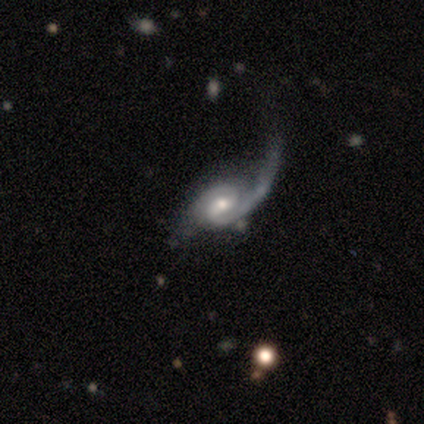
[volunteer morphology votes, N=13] A featured or disk galaxy (100%) with a weak bar (54%), 2 (92%) medium (46%) spiral arms (100%) and a moderate central bulge (69%).

Vote fractions:
- Smooth or featured? featured or disk: 100% / smooth: 0% / star or artifact: 0%
- Edge-on disk? no: 100% / yes: 0%
- Bar? weak: 54% / no: 46% / strong: 0%
- Spiral arms? yes: 100% / no: 0%
- Spiral winding? medium: 46% / tight: 31% / loose: 23%
- Spiral arm count? 2: 92% / 1: 8% / 3: 0% / 4: 0% / more than 4: 0% / can't tell: 0%
- Bulge size? moderate: 69% / large: 15% / small: 15% / dominant: 0% / none: 0%
- Merging? none: 62% / major disturbance: 31% / minor disturbance: 8% / merger: 0%